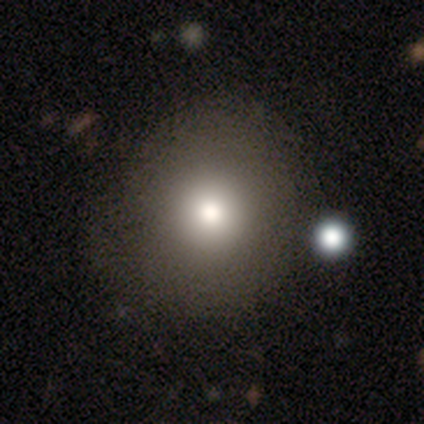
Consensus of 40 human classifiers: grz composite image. It shows a smooth galaxy with no disk features (80%) that is round (100%). Merging: none (65%).